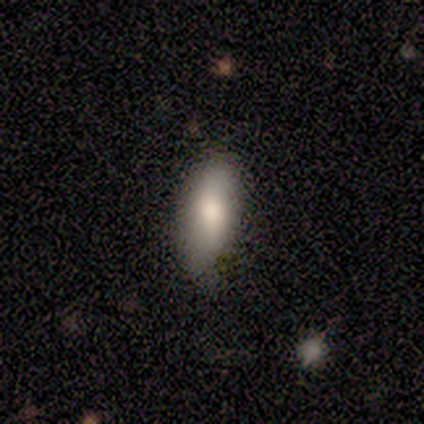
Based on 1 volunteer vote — A smooth galaxy with no disk features (100%) that is in between round and cigar-shaped (100%).

Vote fractions:
- Smooth or featured? smooth: 100% / featured or disk: 0% / star or artifact: 0%
- How rounded? in between: 100% / round: 0% / cigar-shaped: 0%
- Merging? minor disturbance: 100% / none: 0% / major disturbance: 0% / merger: 0%